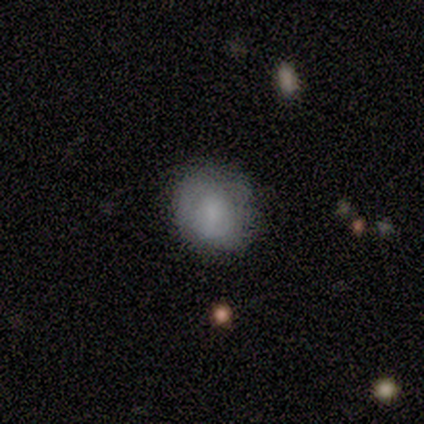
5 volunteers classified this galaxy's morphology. Smooth or featured? 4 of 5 (80%) said smooth. How rounded? 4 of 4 (100%) said round. Merging? 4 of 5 (80%) said none.